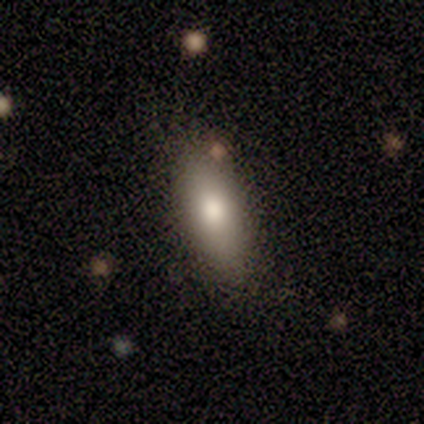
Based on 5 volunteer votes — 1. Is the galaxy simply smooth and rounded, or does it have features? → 60% smooth, 40% featured or disk, 0% star or artifact.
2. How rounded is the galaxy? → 100% in between, 0% round, 0% cigar-shaped.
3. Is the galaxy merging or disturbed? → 60% none, 40% minor disturbance, 0% major disturbance, 0% merger.